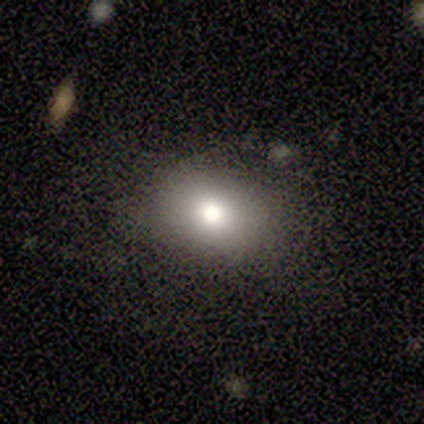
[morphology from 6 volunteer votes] Smooth or featured? smooth (100%)
How rounded? round (50%, tied with in between)
Merging? none (83%)